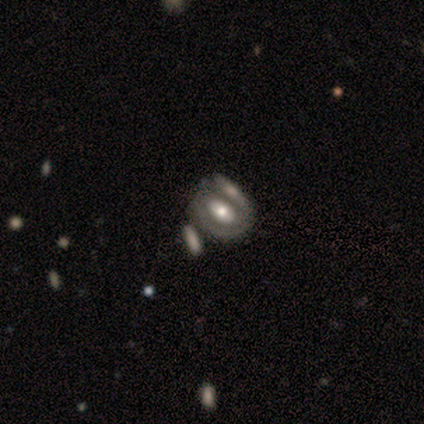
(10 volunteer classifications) featured or disk 80%, smooth 10%, star or artifact 10%. Down the decision tree: edge-on disk — no (100%); bar — strong (38%, tied with weak); spiral arms — yes (50%, tied with no); spiral arm count — 1 (50%); spiral winding — tight (50%); bulge size — moderate (50%); merging — minor disturbance (33%, tied with merger).